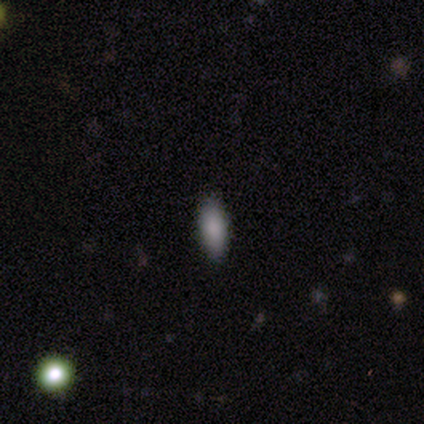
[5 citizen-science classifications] featured or disk 60%, smooth 40%, star or artifact 0%. Down the decision tree: edge-on disk — no (100%); bar — no (100%); spiral arms — no (100%); bulge size — small (67%); merging — none (100%).